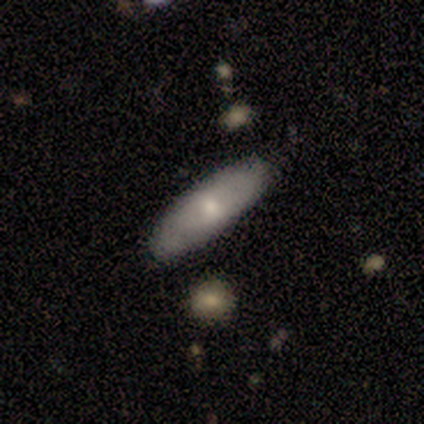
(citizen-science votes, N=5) Q: Smooth or featured?
A: smooth (60%); runner-up: featured or disk (40%)
Q: How rounded?
A: in between (67%); runner-up: round (33%)
Q: Merging?
A: none (100%)